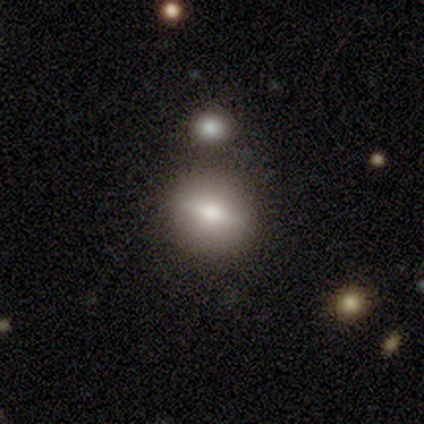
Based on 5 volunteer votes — Smooth or featured? 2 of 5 (40%, tied with star or artifact) said featured or disk. Edge-on disk? 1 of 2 (50%, tied with no) said yes. Edge-on bulge? 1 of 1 (100%) said rounded. Merging? 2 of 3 (67%) said none.